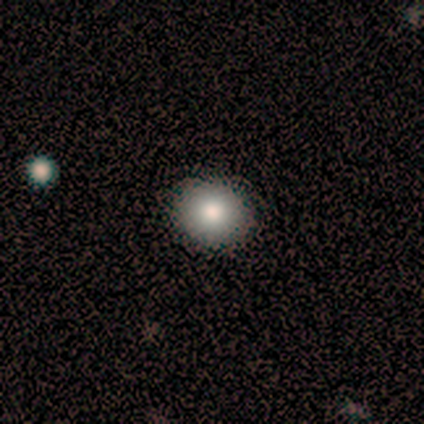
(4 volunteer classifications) A smooth galaxy with no disk features (75%) that is round (100%).

Vote fractions:
- Smooth or featured? smooth: 75% / featured or disk: 25% / star or artifact: 0%
- How rounded? round: 100% / in between: 0% / cigar-shaped: 0%
- Merging? none: 100% / minor disturbance: 0% / major disturbance: 0% / merger: 0%